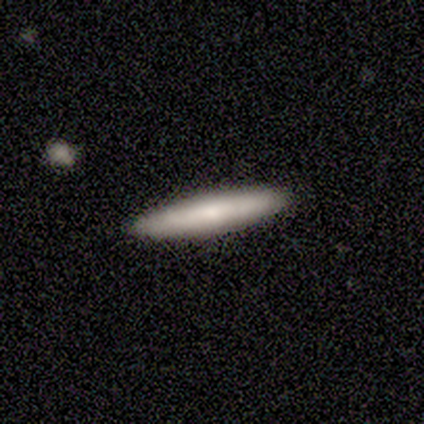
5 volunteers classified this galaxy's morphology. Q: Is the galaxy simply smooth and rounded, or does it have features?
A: smooth — 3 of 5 (60%).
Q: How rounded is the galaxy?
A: cigar-shaped — 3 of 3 (100%).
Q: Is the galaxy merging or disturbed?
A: none — 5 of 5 (100%).